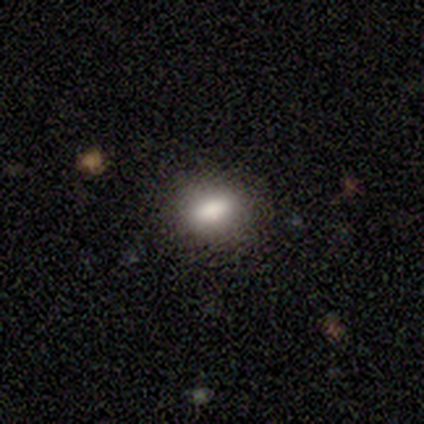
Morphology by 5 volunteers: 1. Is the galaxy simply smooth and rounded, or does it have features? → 80% smooth, 20% featured or disk, 0% star or artifact.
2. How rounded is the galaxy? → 75% in between, 25% round, 0% cigar-shaped.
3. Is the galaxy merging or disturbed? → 80% none, 20% minor disturbance, 0% major disturbance, 0% merger.